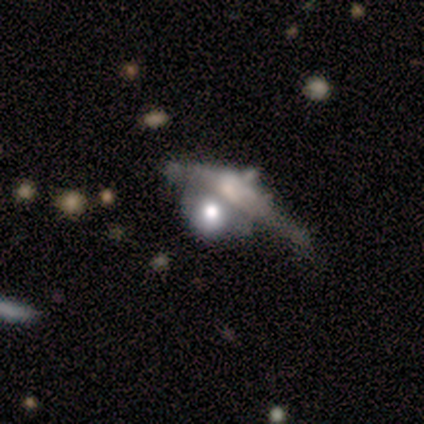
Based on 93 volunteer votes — Q: Smooth or featured?
A: featured or disk (49%); runner-up: smooth (42%)
Q: Edge-on disk?
A: no (70%); runner-up: yes (30%)
Q: Bar?
A: no (100%)
Q: Spiral arms?
A: no (97%); runner-up: yes (3%)
Q: Bulge size?
A: large (44%); runner-up: moderate (31%)
Q: Merging?
A: merger (59%); runner-up: none (15%)